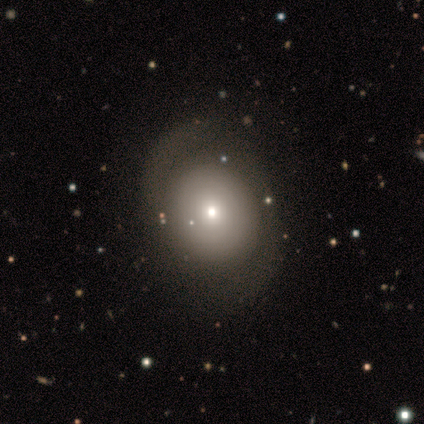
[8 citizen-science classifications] smooth-or-featured: featured or disk: 50% | smooth: 38% | star or artifact: 12%
  disk-edge-on: no: 100% | yes: 0%
    bar: no: 75% | weak: 25% | strong: 0%
    has-spiral-arms: yes: 50% (tied) | no: 50% (tied)
      spiral-winding: tight: 50% (tied) | medium: 50% (tied) | loose: 0%
      spiral-arm-count: 2: 100% | 1: 0% | 3: 0% | 4: 0% | more than 4: 0% | can't tell: 0%
    bulge-size: moderate: 50% | dominant: 25% | small: 25% | large: 0% | none: 0%
  merging: none: 86% | major disturbance: 14% | minor disturbance: 0% | merger: 0%